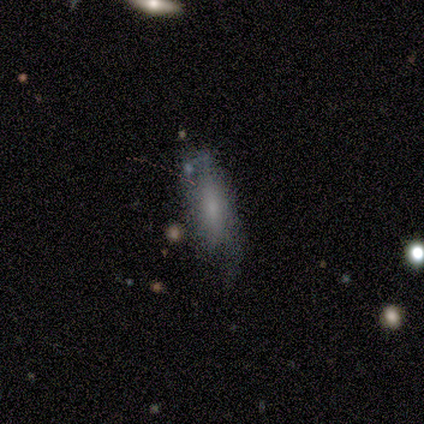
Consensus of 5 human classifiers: This is clearly a smooth galaxy (80%). How rounded: likely cigar-shaped (75%). Merging: possibly none (50%).